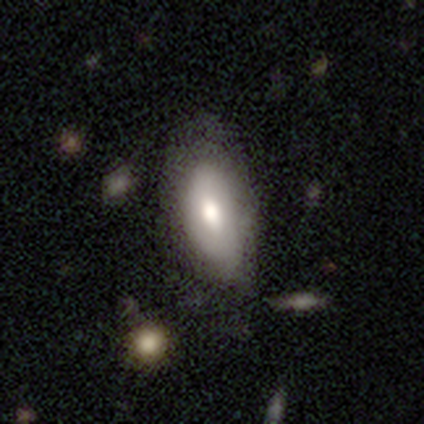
Overall: smooth (50%, tied with featured or disk). How rounded: in between (50%, tied with cigar-shaped). Merging: none (75%).